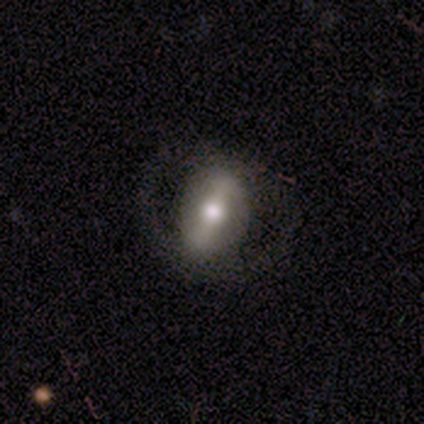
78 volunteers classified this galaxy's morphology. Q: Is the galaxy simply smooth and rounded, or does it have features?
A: featured or disk — 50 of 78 (64%).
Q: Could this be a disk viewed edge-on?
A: no — 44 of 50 (88%).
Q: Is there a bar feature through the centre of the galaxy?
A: strong — 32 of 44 (73%).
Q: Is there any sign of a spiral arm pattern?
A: no — 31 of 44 (70%).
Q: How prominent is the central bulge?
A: moderate — 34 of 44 (77%).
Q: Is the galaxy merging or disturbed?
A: none — 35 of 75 (47%).